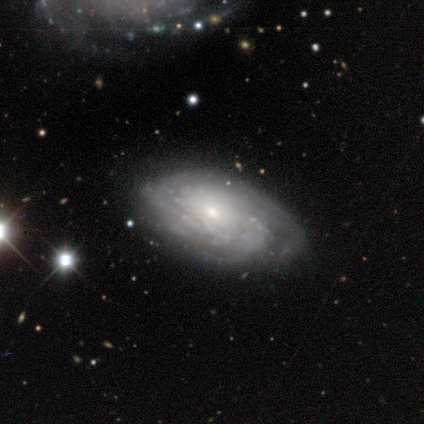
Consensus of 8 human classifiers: Q: Smooth or featured?
A: featured or disk (88%); runner-up: star or artifact (12%)
Q: Edge-on disk?
A: no (100%)
Q: Bar?
A: no (71%); runner-up: strong (14%)
Q: Spiral arms?
A: yes (71%); runner-up: no (29%)
Q: Spiral winding?
A: tight (60%); runner-up: medium (40%)
Q: Spiral arm count?
A: more than 4 (60%); runner-up: 3 (20%)
Q: Bulge size?
A: small (71%); runner-up: moderate (14%)
Q: Merging?
A: none (71%); runner-up: minor disturbance (29%)